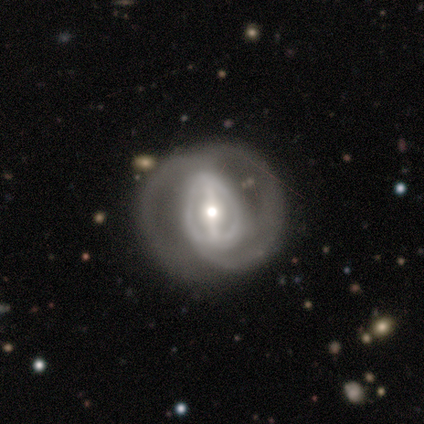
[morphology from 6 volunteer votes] Smooth or featured?
  - featured or disk: 83% *
  - smooth: 17%
  - star or artifact: 0%
Edge-on disk?
  - no: 100% *
  - yes: 0%
Bar?
  - strong: 60% *
  - weak: 20%
  - no: 20%
Spiral arms?
  - yes: 60% *
  - no: 40%
Spiral winding?
  - tight: 33% * (tied)
  - medium: 33% * (tied)
  - loose: 33% * (tied)
Spiral arm count?
  - 1: 33% * (tied)
  - 2: 33% * (tied)
  - can't tell: 33% * (tied)
  - 3: 0%
  - 4: 0%
  - more than 4: 0%
Bulge size?
  - small: 60% *
  - moderate: 40%
  - dominant: 0%
  - large: 0%
  - none: 0%
Merging?
  - none: 67% *
  - minor disturbance: 17%
  - major disturbance: 17%
  - merger: 0%